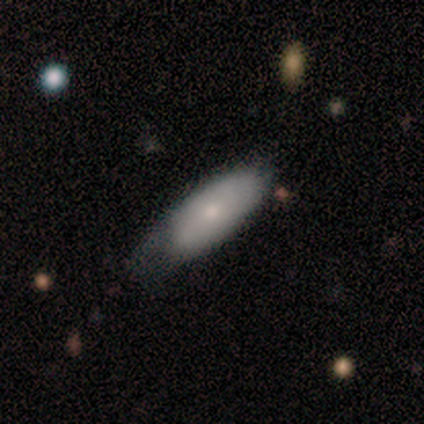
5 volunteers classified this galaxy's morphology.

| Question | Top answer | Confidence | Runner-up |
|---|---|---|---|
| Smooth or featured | smooth | 80% | featured or disk (20%) |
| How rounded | in between | 75% | cigar-shaped (25%) |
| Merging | none | 80% | minor disturbance (20%) |